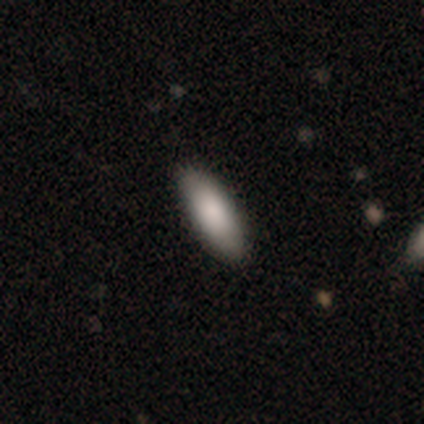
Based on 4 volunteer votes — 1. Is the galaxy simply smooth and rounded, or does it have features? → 100% smooth, 0% featured or disk, 0% star or artifact.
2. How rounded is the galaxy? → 75% in between, 25% cigar-shaped, 0% round.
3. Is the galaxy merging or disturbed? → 100% none, 0% minor disturbance, 0% major disturbance, 0% merger.